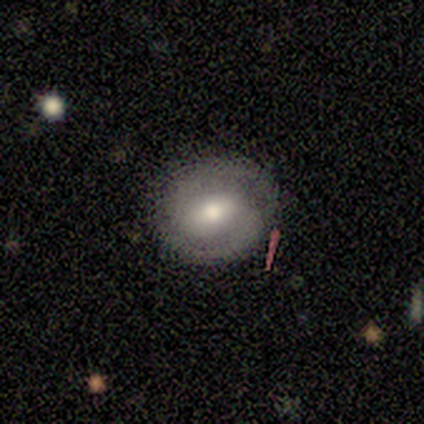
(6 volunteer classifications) A featured or disk galaxy (67%) with a weak bar (50%), 2 (100%) tight (100%) spiral arms (75%) and a moderate central bulge (100%).

Vote fractions:
- Smooth or featured? featured or disk: 67% / smooth: 33% / star or artifact: 0%
- Edge-on disk? no: 100% / yes: 0%
- Bar? weak: 50% / strong: 25% / no: 25%
- Spiral arms? yes: 75% / no: 25%
- Spiral winding? tight: 100% / medium: 0% / loose: 0%
- Spiral arm count? 2: 100% / 1: 0% / 3: 0% / 4: 0% / more than 4: 0% / can't tell: 0%
- Bulge size? moderate: 100% / dominant: 0% / large: 0% / small: 0% / none: 0%
- Merging? none: 100% / minor disturbance: 0% / major disturbance: 0% / merger: 0%